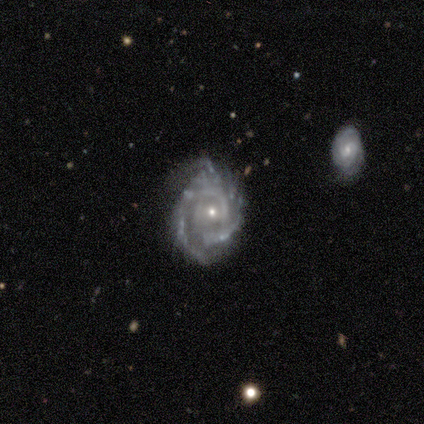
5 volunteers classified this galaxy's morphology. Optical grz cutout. It shows a featured or disk galaxy (100%) with no bar (80%), medium (60%) spiral arms (100%) and a small central bulge (100%). Merging: none (100%).